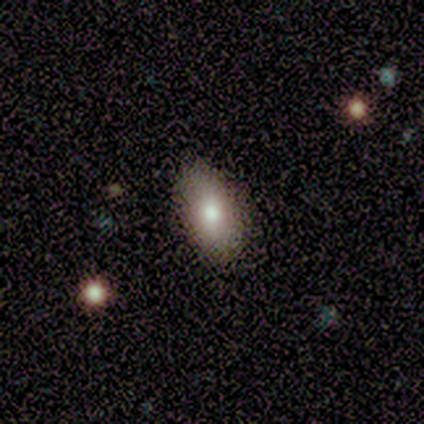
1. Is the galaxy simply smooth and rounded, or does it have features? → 60% smooth, 40% featured or disk, 0% star or artifact.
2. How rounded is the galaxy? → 100% in between, 0% round, 0% cigar-shaped.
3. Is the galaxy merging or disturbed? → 100% none, 0% minor disturbance, 0% major disturbance, 0% merger.